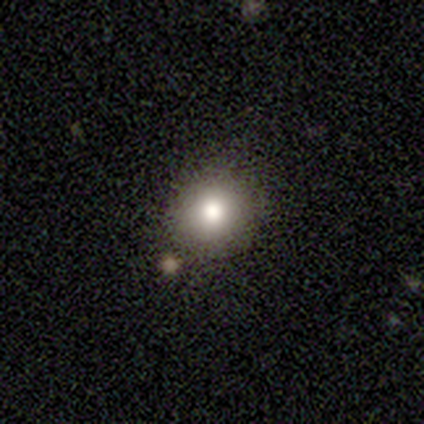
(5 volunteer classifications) A smooth galaxy with no disk features (40%, tied with star or artifact) that is round (100%). Merging: none (100%).